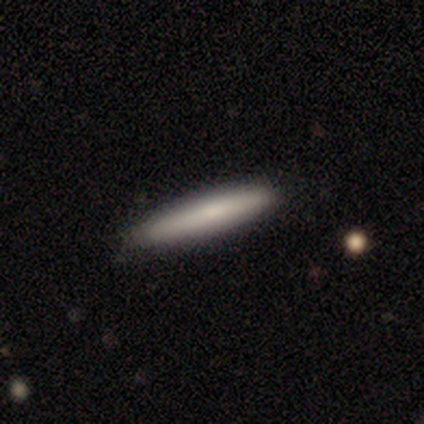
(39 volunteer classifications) Overall: smooth (87%). How rounded: cigar-shaped (91%). Merging: none (92%).